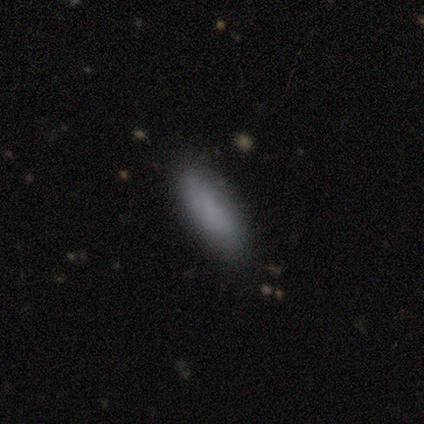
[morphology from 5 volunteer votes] smooth 60%, star or artifact 40%, featured or disk 0%. Down the decision tree: how rounded — in between (67%); merging — none (67%).